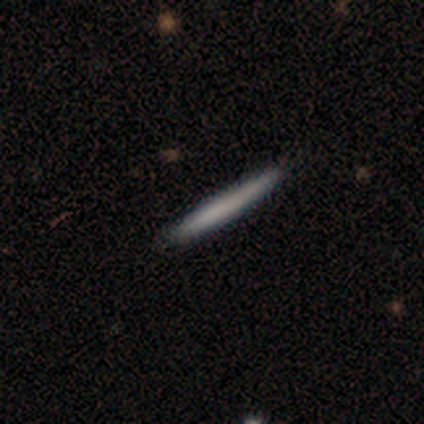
A smooth galaxy with no disk features (80%) that is cigar-shaped (100%). Merging: none (60%).